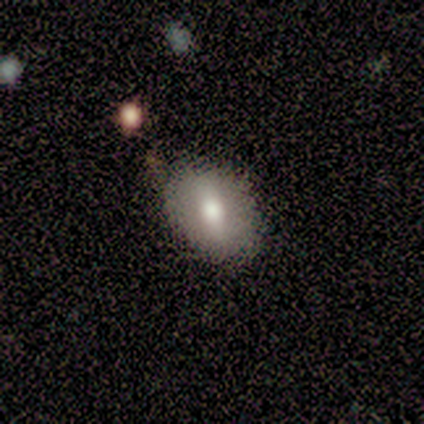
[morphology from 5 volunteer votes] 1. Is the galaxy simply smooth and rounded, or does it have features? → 100% smooth, 0% featured or disk, 0% star or artifact.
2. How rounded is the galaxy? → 80% in between, 20% round, 0% cigar-shaped.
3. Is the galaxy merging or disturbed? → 60% minor disturbance, 40% none, 0% major disturbance, 0% merger.